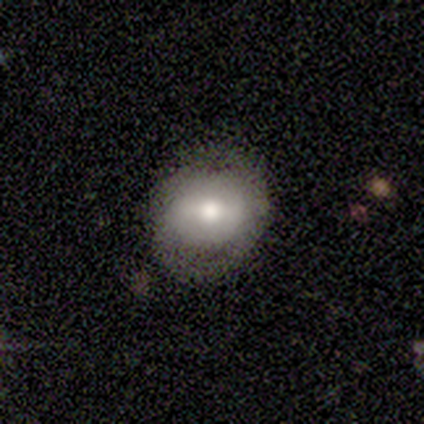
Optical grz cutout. It shows a smooth galaxy with no disk features (60%) that is round (67%). Merging: none (100%).